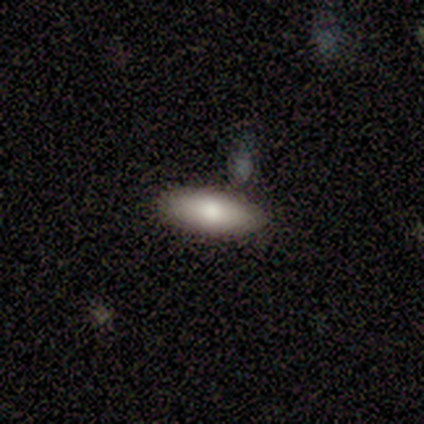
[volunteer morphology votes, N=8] Overall: smooth (62%; featured or disk 25%). How rounded: in between (100%). Merging: none (86%).